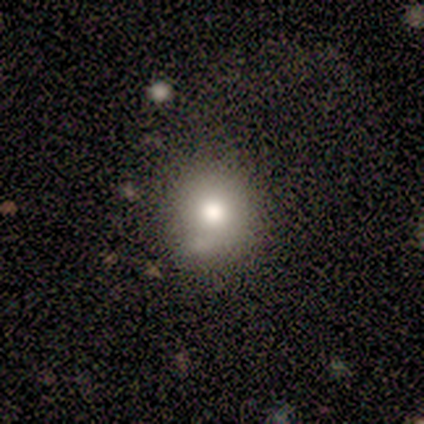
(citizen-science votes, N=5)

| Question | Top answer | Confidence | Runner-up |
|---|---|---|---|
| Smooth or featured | smooth | 80% | star or artifact (20%) |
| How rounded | round | 100% | — |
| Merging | none | 75% | major disturbance (25%) |